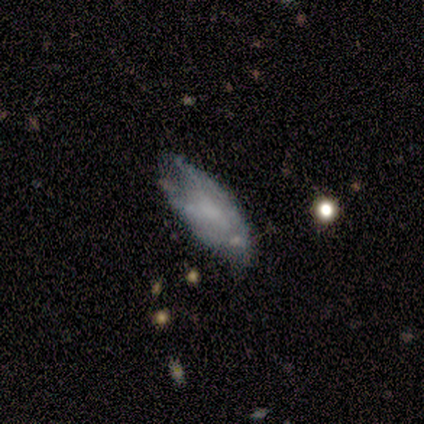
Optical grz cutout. It shows a featured or disk galaxy (80%) with no bar (100%), 3 (50%, tied with can't tell) tight (50%, tied with medium) spiral arms (67%) and no central bulge (67%). Merging: none (60%).